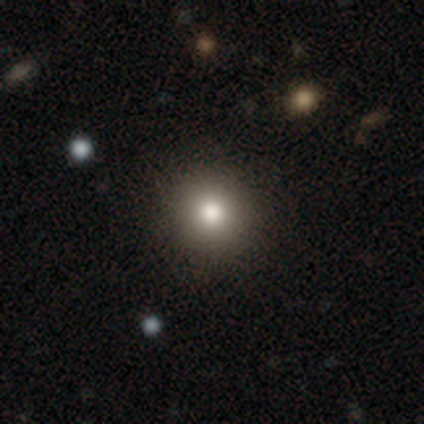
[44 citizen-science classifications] Q: Smooth or featured?
A: smooth (64%); runner-up: star or artifact (23%)
Q: How rounded?
A: round (100%)
Q: Merging?
A: none (94%); runner-up: minor disturbance (6%)